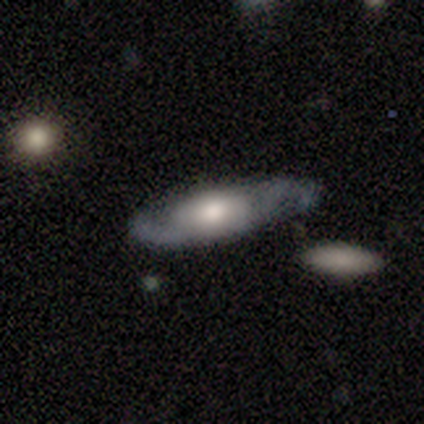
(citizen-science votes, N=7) Volunteers were most divided on "bulge size": moderate: 50%, large: 33%, small: 17%, dominant: 0%, none: 0%. More confident: smooth or featured — featured or disk (100%); bar — no (100%); edge-on disk — no (86%); spiral arms — yes (83%); merging — none (71%); spiral winding — medium (60%); spiral arm count — 2 (60%).